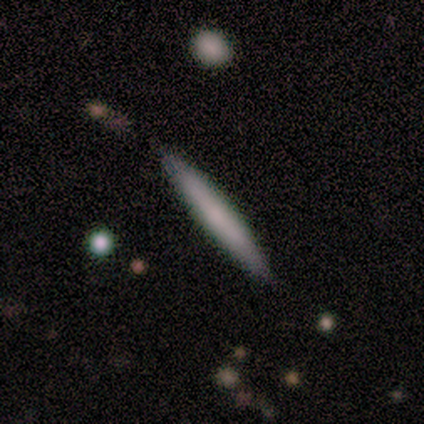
Smooth or featured? 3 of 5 (60%) said smooth. How rounded? 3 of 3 (100%) said cigar-shaped. Merging? 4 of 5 (80%) said none.